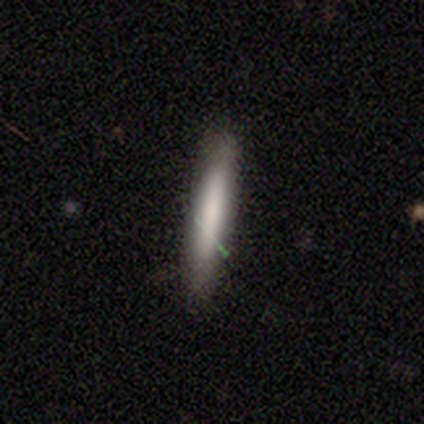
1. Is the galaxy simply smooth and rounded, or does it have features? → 100% smooth, 0% featured or disk, 0% star or artifact.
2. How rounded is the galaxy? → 80% cigar-shaped, 20% in between, 0% round.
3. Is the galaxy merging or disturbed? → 100% none, 0% minor disturbance, 0% major disturbance, 0% merger.